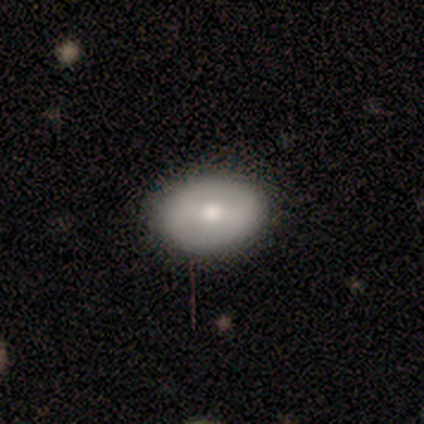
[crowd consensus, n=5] Smooth or featured? smooth (80%)
How rounded? in between (100%)
Merging? none (100%)